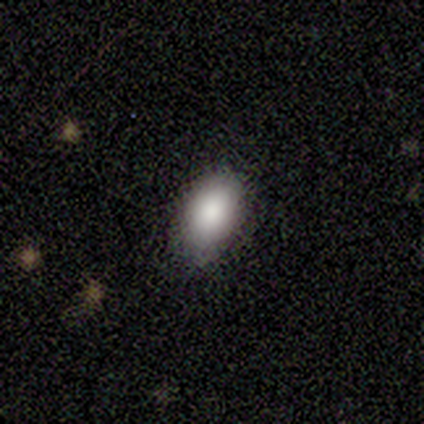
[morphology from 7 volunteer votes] smooth-or-featured: smooth: 86% | featured or disk: 14% | star or artifact: 0%
  how-rounded: in between: 100% | round: 0% | cigar-shaped: 0%
  merging: none: 71% | minor disturbance: 14% | merger: 14% | major disturbance: 0%